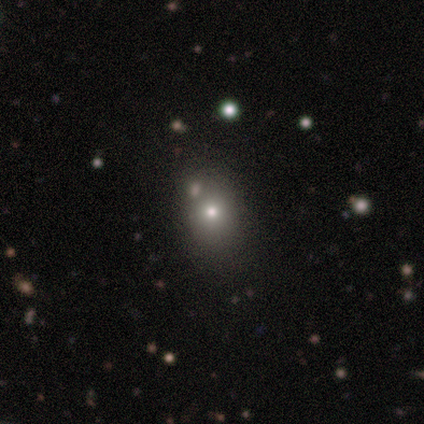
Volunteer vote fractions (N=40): smooth 72%, featured or disk 15%, star or artifact 12%. Down the decision tree: how rounded — in between (52%); merging — none (71%).